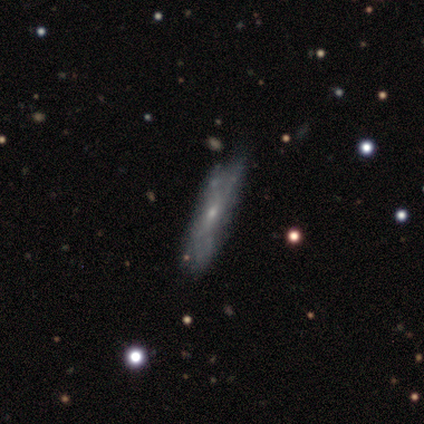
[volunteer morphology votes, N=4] Q: Smooth or featured?
A: featured or disk (75%); runner-up: star or artifact (25%)
Q: Edge-on disk?
A: no (67%); runner-up: yes (33%)
Q: Bar?
A: weak (50%); tied with: no (50%)
Q: Spiral arms?
A: yes (50%); tied with: no (50%)
Q: Spiral winding?
A: tight (100%)
Q: Spiral arm count?
A: can't tell (100%)
Q: Bulge size?
A: moderate (100%)
Q: Merging?
A: none (33%); tied with: minor disturbance (33%); merger (33%)